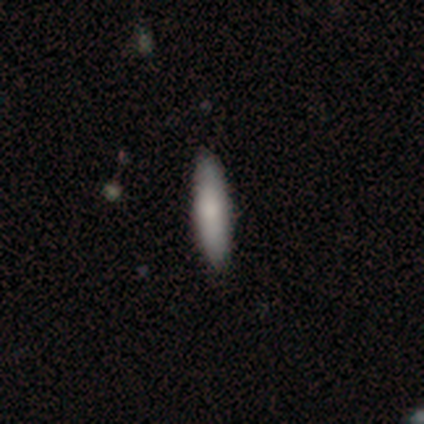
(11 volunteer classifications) Smooth or featured?
  - smooth: 91% *
  - featured or disk: 9%
  - star or artifact: 0%
How rounded?
  - cigar-shaped: 70% *
  - in between: 30%
  - round: 0%
Merging?
  - none: 100% *
  - minor disturbance: 0%
  - major disturbance: 0%
  - merger: 0%